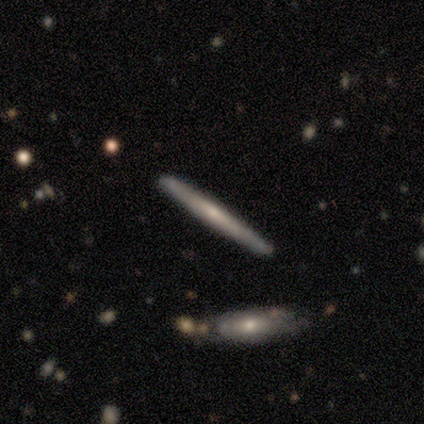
This appears to be a featured or disk galaxy (62%) viewed edge-on (96%) with a rounded central bulge (52%). Merging: none (89%).